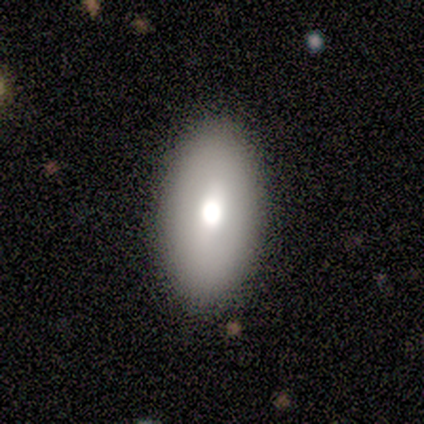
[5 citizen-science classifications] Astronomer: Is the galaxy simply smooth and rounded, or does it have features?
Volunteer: smooth — 60%.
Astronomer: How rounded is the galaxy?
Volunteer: in between — 100%.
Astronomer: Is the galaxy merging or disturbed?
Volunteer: none — 100%.